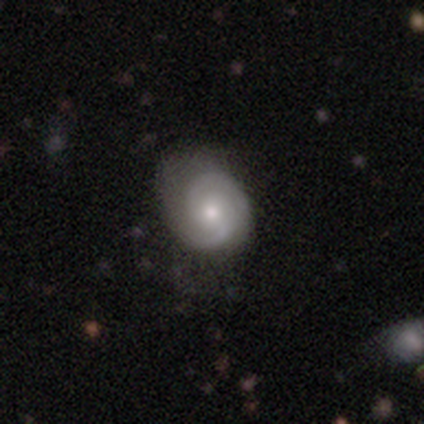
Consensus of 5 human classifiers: Smooth or featured: featured or disk — 80% (smooth — 20%)
Edge-on disk: no — 100%
Bar: no — 75% (weak — 25%)
Spiral arms: yes — 100%
Spiral winding: medium — 75% (tight — 25%)
Spiral arm count: 2 — 100%
Bulge size: moderate — 75% (small — 25%)
Merging: none — 80% (major disturbance — 20%)